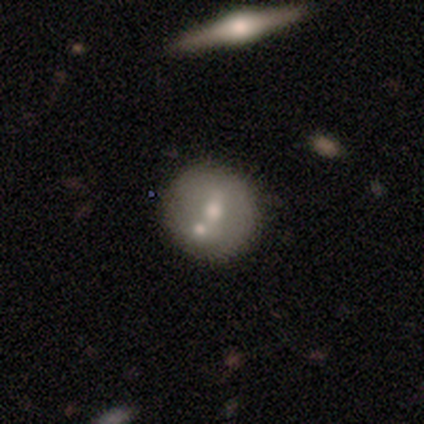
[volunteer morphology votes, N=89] Smooth or featured? smooth (54%)
How rounded? round (92%)
Merging? none (59%)